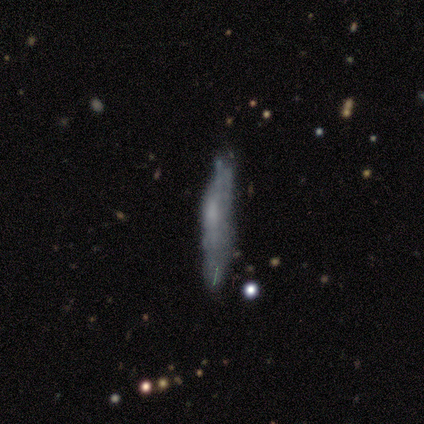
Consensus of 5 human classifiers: A smooth galaxy with no disk features (60%) that is cigar-shaped (67%).

Vote fractions:
- Smooth or featured? smooth: 60% / featured or disk: 40% / star or artifact: 0%
- How rounded? cigar-shaped: 67% / in between: 33% / round: 0%
- Merging? none: 60% / minor disturbance: 40% / major disturbance: 0% / merger: 0%